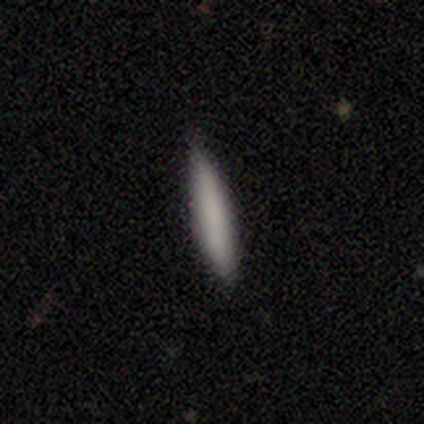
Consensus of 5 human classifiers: Q: Smooth or featured?
A: smooth (100%)
Q: How rounded?
A: cigar-shaped (100%)
Q: Merging?
A: none (100%)